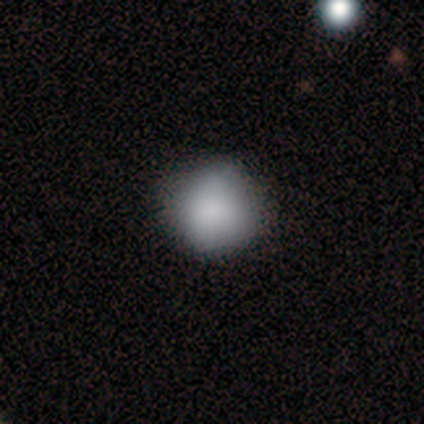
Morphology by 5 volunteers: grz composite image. It shows a smooth galaxy with no disk features (100%) that is round (100%). Merging: none (60%).